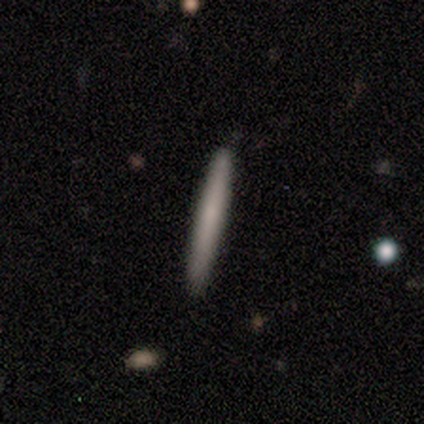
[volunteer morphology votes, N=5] Smooth or featured? smooth (60%)
How rounded? cigar-shaped (100%)
Merging? none (100%)